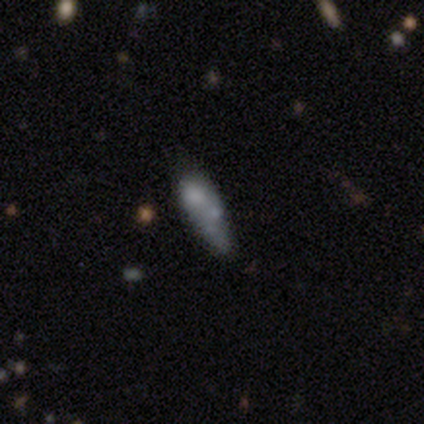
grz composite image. It shows a smooth galaxy with no disk features (75%) that is round (33%, tied with in between and cigar-shaped). Merging: none (33%, tied with major disturbance and merger).